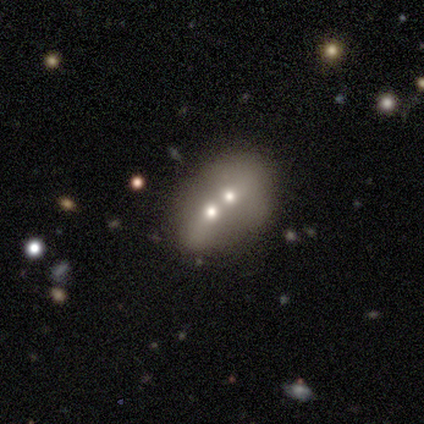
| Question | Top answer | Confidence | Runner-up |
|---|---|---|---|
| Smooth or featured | smooth | 60% | featured or disk (40%) |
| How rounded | in between | 67% | round (33%) |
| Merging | merger | 100% | — |